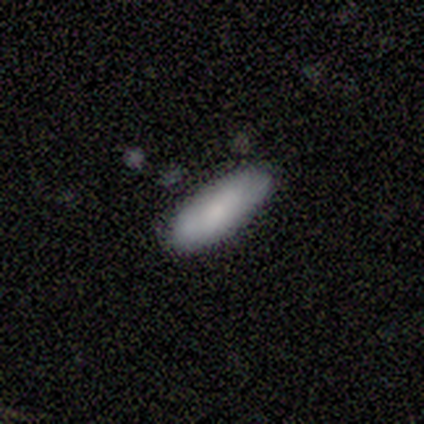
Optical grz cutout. It shows a smooth galaxy with no disk features (100%) that is in between round and cigar-shaped (50%, tied with cigar-shaped). Merging: none (100%).